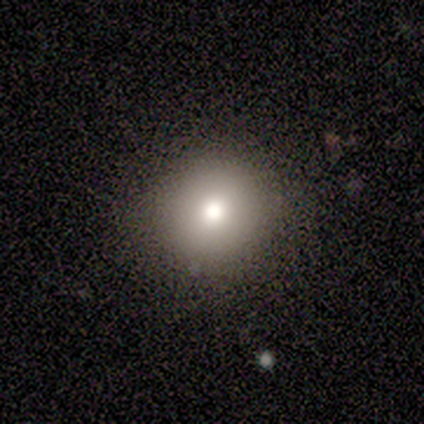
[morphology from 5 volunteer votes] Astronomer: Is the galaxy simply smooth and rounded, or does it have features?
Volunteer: smooth — 80%.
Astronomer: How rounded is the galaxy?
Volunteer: round — 100%.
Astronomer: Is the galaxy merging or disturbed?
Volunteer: none — 75%.